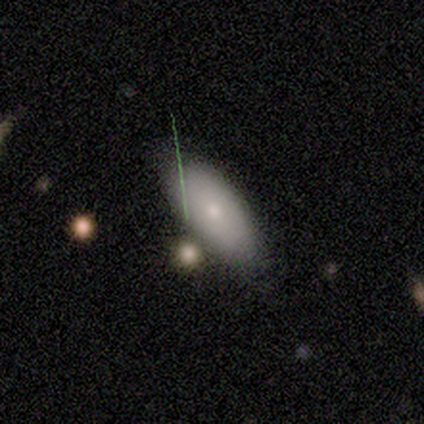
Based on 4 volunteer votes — Smooth or featured: smooth — 100%
How rounded: in between — 75% (cigar-shaped — 25%)
Merging: none — 75% (minor disturbance — 25%)